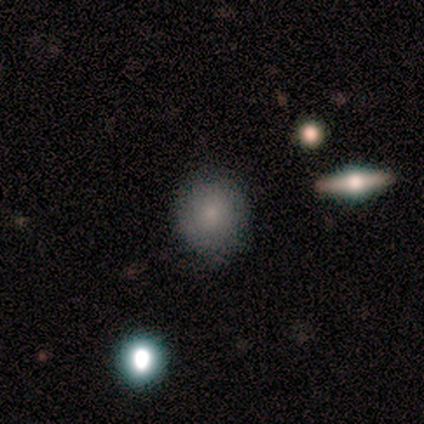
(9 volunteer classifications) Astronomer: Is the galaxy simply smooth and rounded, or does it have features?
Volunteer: smooth — 89%.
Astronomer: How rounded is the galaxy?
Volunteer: round — 50% (runner-up: in between, 38%).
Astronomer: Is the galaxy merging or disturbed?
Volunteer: none — 89%.